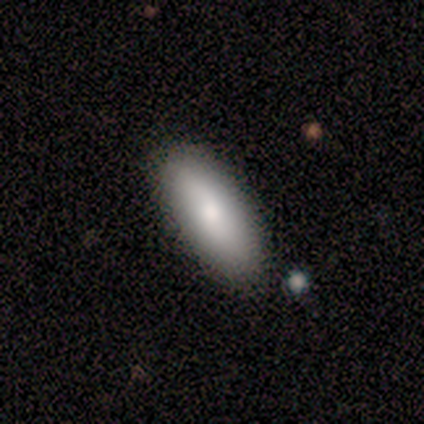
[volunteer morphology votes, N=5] type=smooth (80%); roundness=in between (50%, tied with cigar-shaped); merging=none (100%).